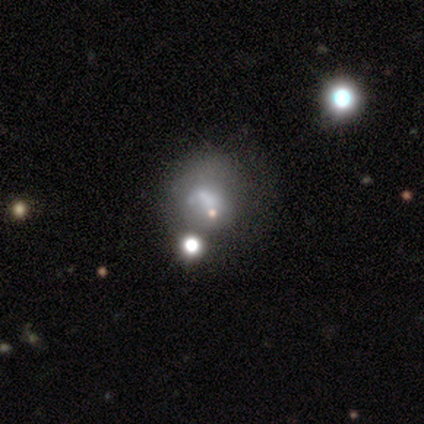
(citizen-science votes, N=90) This appears to be a smooth galaxy with no disk features (42%) that is round (71%). Merging: none (43%).